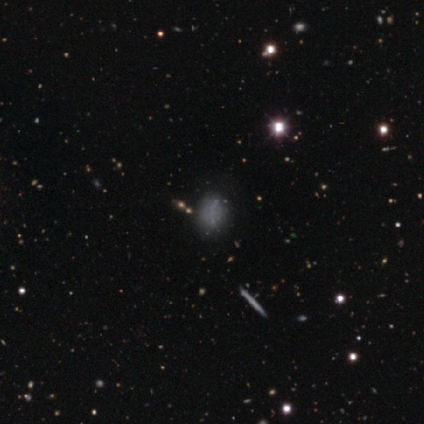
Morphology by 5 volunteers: type=smooth (40%, tied with featured or disk); roundness=round (50%, tied with in between); merging=none (75%).